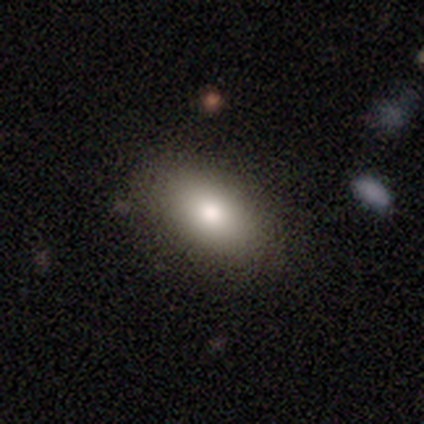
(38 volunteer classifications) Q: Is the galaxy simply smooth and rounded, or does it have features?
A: smooth — 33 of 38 (87%).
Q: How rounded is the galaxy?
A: in between — 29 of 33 (88%).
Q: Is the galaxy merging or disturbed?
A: none — 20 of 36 (56%).